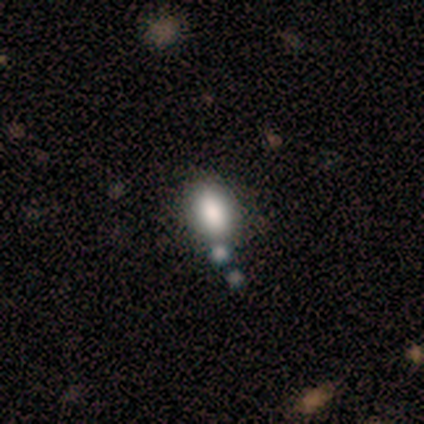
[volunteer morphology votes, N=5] Smooth or featured: smooth — 100%
How rounded: in between — 80% (cigar-shaped — 20%)
Merging: none — 60% (merger — 40%)